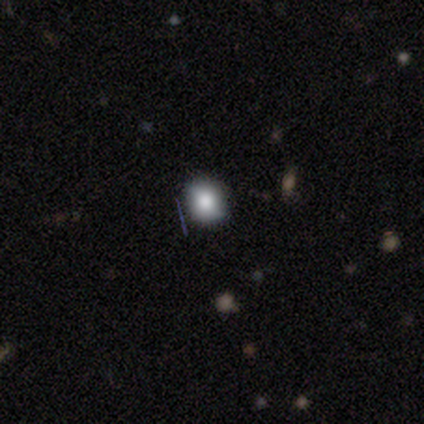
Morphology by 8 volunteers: type=smooth (62%); roundness=round (80%); merging=none (80%).